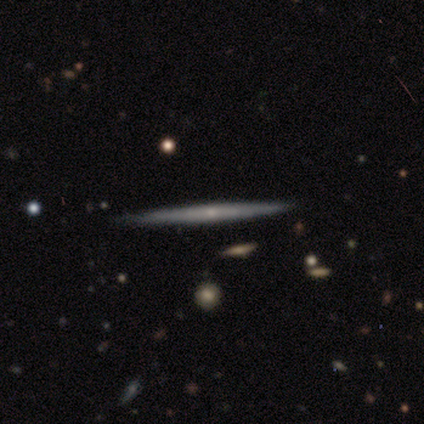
Q: Smooth or featured?
A: featured or disk (74%); runner-up: smooth (26%)
Q: Edge-on disk?
A: yes (100%)
Q: Edge-on bulge?
A: none (86%); runner-up: rounded (14%)
Q: Merging?
A: none (97%); runner-up: minor disturbance (3%)